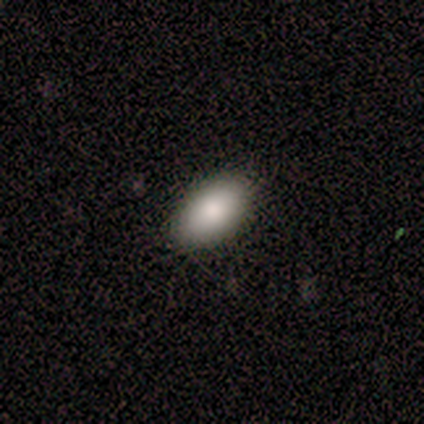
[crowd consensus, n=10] A smooth galaxy with no disk features (90%) that is in between round and cigar-shaped (89%). Merging: none (90%).